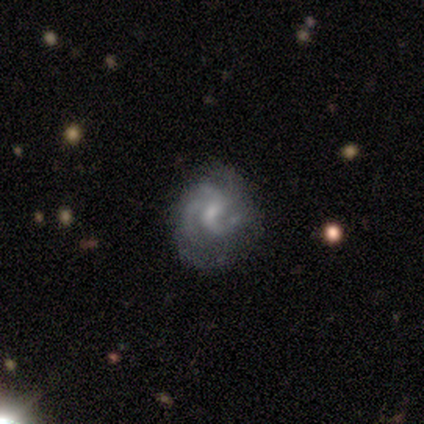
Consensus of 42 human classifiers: Smooth or featured: featured or disk — 95% (smooth — 2%)
Edge-on disk: no — 100%
Bar: weak — 50% (no — 48%)
Spiral arms: yes — 98% (no — 2%)
Spiral winding: medium — 51% (tight — 36%)
Spiral arm count: 3 — 56% (can't tell — 18%)
Bulge size: small — 45% (moderate — 25%)
Merging: none — 59% (minor disturbance — 24%)